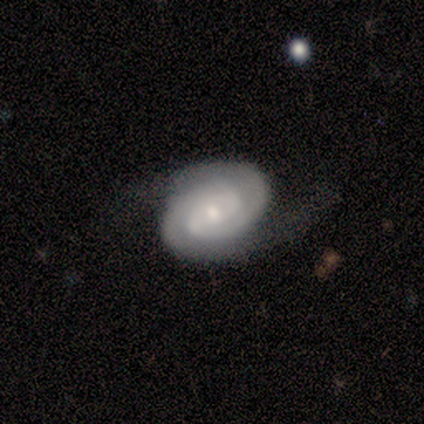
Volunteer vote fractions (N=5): Volunteers were most divided on "bar": no: 80%, weak: 20%, strong: 0%. More confident: smooth or featured — featured or disk (100%); edge-on disk — no (100%); spiral arms — yes (100%); spiral arm count — 2 (100%); merging — none (100%); spiral winding — tight (80%); bulge size — small (80%).